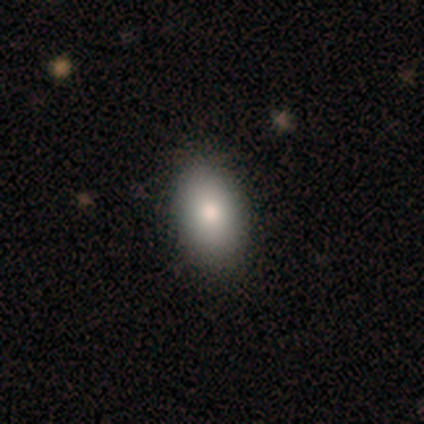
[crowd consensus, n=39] Q: Smooth or featured?
A: smooth (95%); runner-up: star or artifact (5%)
Q: How rounded?
A: in between (100%)
Q: Merging?
A: none (54%); runner-up: minor disturbance (11%)